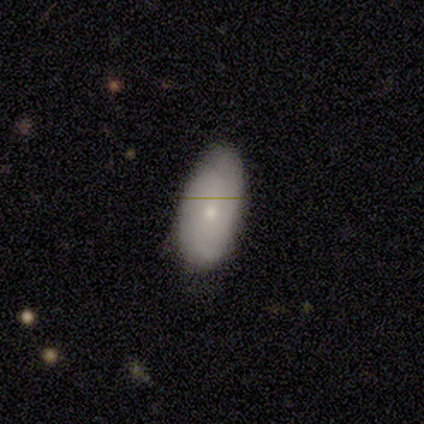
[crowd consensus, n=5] smooth 80%, featured or disk 20%, star or artifact 0%. Down the decision tree: how rounded — in between (100%); merging — none (80%).